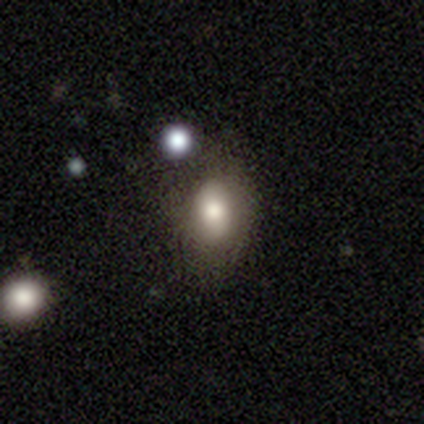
Volunteers were most divided on "merging": none: 50%, minor disturbance: 25%, major disturbance: 25%, merger: 0%. More confident: how rounded — in between (100%); smooth or featured — smooth (80%).